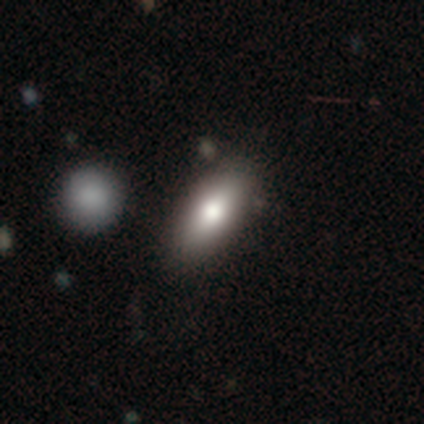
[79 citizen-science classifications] Q: Smooth or featured?
A: smooth (75%); runner-up: featured or disk (16%)
Q: How rounded?
A: in between (93%); runner-up: cigar-shaped (5%)
Q: Merging?
A: none (33%); runner-up: merger (12%)